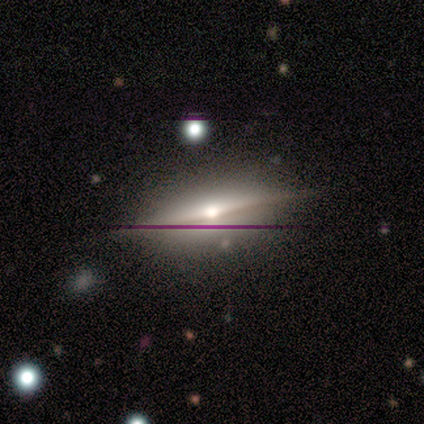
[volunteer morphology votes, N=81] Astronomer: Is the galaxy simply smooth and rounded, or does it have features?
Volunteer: featured or disk — 85%.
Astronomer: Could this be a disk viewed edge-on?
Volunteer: yes — 96%.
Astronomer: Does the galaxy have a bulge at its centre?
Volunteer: rounded — 97%.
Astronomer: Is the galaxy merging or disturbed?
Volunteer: none — 82%.